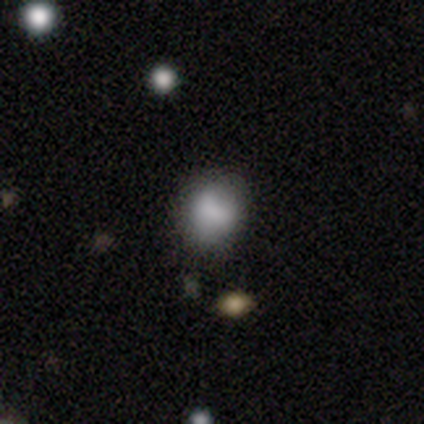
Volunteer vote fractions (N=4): This appears to be a smooth galaxy with no disk features (100%) that is in between round and cigar-shaped (75%). Merging: none (75%).